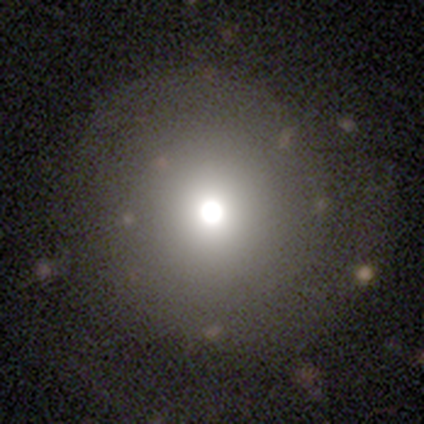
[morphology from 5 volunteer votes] Smooth or featured? featured or disk (60%)
Edge-on disk? no (67%)
Bar? weak (50%, tied with no)
Spiral arms? yes (100%)
Spiral winding? tight (50%, tied with medium)
Spiral arm count? 2 (50%, tied with can't tell)
Bulge size? large (50%, tied with moderate)
Merging? none (100%)